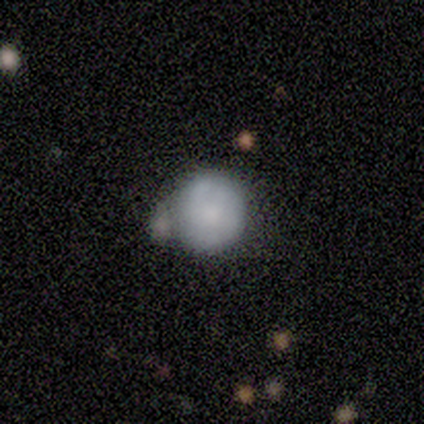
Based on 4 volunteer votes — This is possibly a smooth galaxy (50%). How rounded: clearly round (100%). Merging: likely merger (67%).